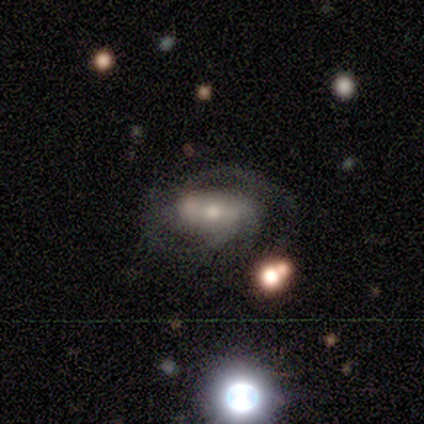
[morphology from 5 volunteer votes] Smooth or featured: featured or disk — 80% (star or artifact — 20%)
Edge-on disk: no — 100%
Bar: no — 75% (weak — 25%)
Spiral arms: yes — 100%
Spiral winding: medium — 100%
Spiral arm count: 2 — 75% (can't tell — 25%)
Bulge size: small — 75% (large — 25%)
Merging: none — 75% (minor disturbance — 25%)